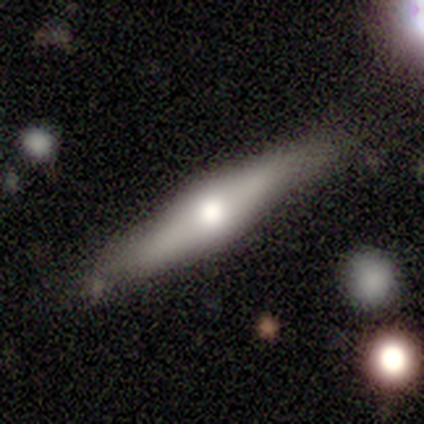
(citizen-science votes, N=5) smooth 60%, featured or disk 40%, star or artifact 0%. Down the decision tree: how rounded — cigar-shaped (100%); merging — none (100%).